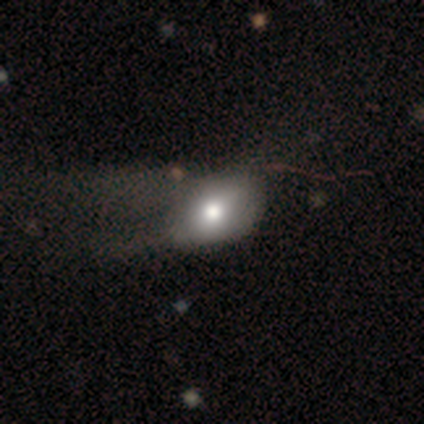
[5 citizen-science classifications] Smooth or featured? featured or disk (40%, tied with star or artifact)
Edge-on disk? no (100%)
Bar? no (100%)
Spiral arms? no (100%)
Bulge size? moderate (100%)
Merging? major disturbance (67%)